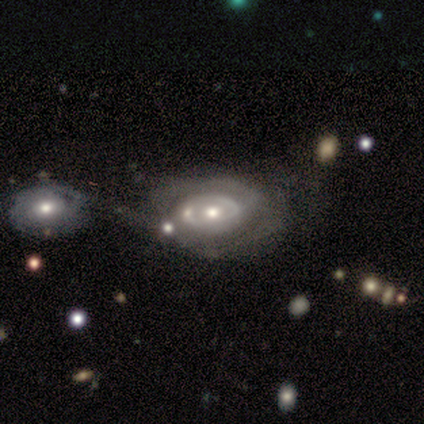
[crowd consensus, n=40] Morphology: type=featured or disk (92%); edge-on=no (100%); bar=no (84%); spiral arms=yes (65%); winding=tight (67%); arm count=2 (54%); bulge=moderate (70%); merging=merger (38%).